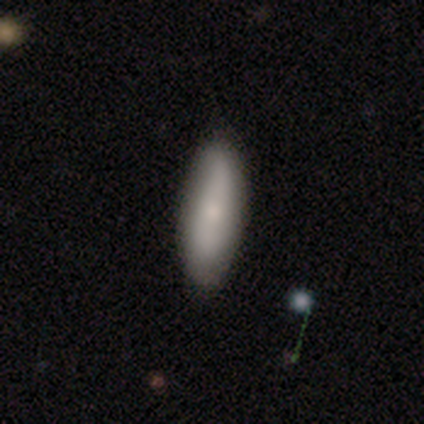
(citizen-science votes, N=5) Smooth or featured: smooth — 80% (featured or disk — 20%)
How rounded: in between — 75% (cigar-shaped — 25%)
Merging: none — 80% (minor disturbance — 20%)